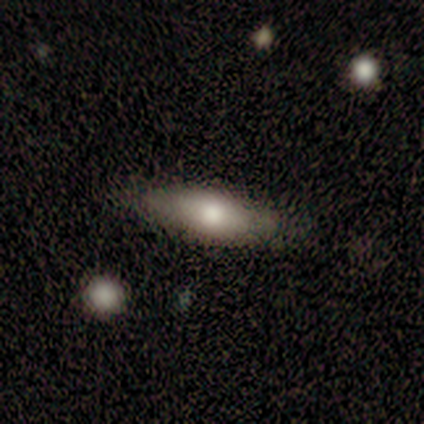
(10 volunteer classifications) This appears to be a smooth galaxy with no disk features (80%) that is cigar-shaped (62%). Merging: none (90%).